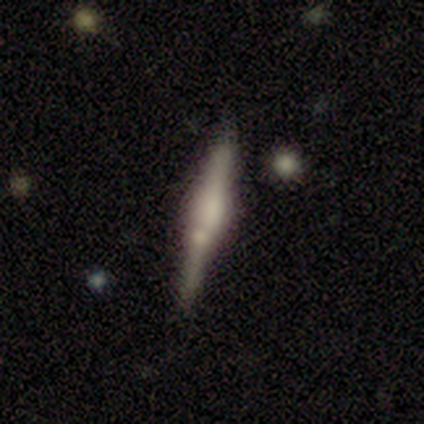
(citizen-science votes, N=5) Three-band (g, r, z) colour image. It shows a smooth galaxy with no disk features (60%) that is cigar-shaped (67%). Merging: none (80%).